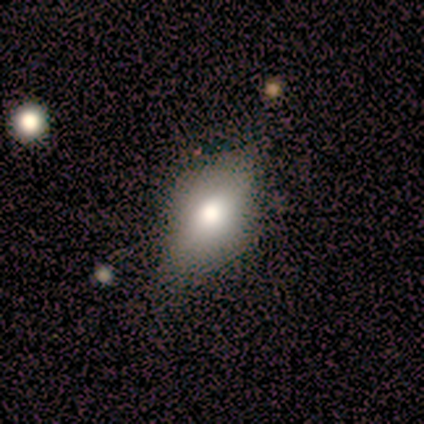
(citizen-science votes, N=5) smooth 80%, featured or disk 20%, star or artifact 0%. Down the decision tree: how rounded — in between (50%, tied with cigar-shaped); merging — none (80%).